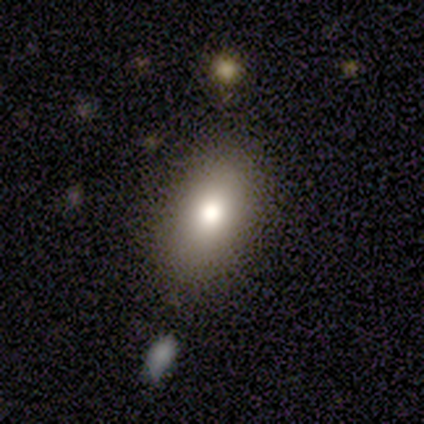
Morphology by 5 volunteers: smooth_or_featured: smooth (p=0.60) [alt: featured or disk p=0.40]
how_rounded: in between (p=0.67) [alt: cigar-shaped p=0.33]
merging: none (p=0.80) [alt: major disturbance p=0.20]